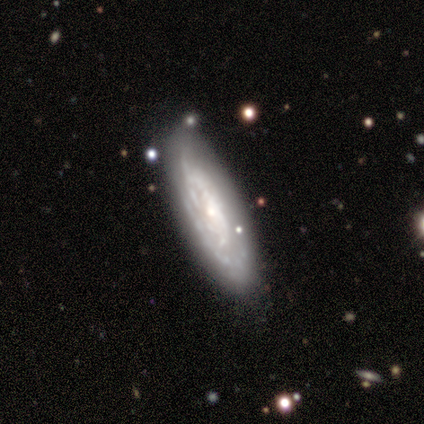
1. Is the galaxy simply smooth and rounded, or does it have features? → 50% smooth (tied), 50% featured or disk (tied), 0% star or artifact.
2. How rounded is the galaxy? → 100% in between, 0% round, 0% cigar-shaped.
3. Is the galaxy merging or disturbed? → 50% none (tied), 50% minor disturbance (tied), 0% major disturbance, 0% merger.